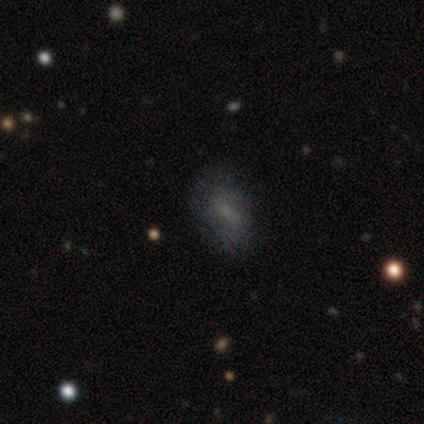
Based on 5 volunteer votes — Morphology: type=smooth (80%); roundness=in between (100%); merging=none (100%).